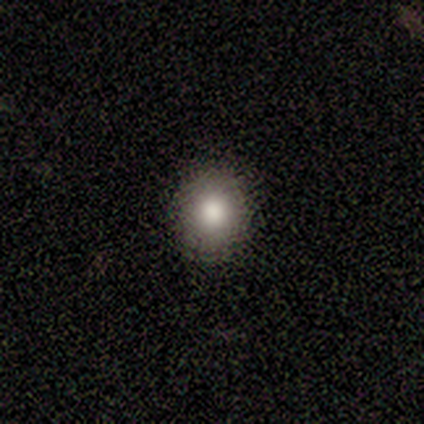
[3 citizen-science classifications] Morphology: type=smooth (100%); roundness=round (100%); merging=none (67%).